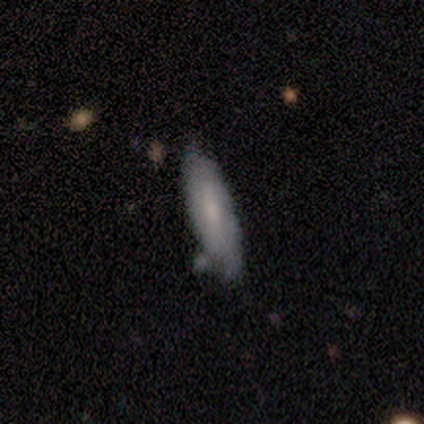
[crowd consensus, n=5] Morphology: type=smooth (60%); roundness=cigar-shaped (67%); merging=none (60%).